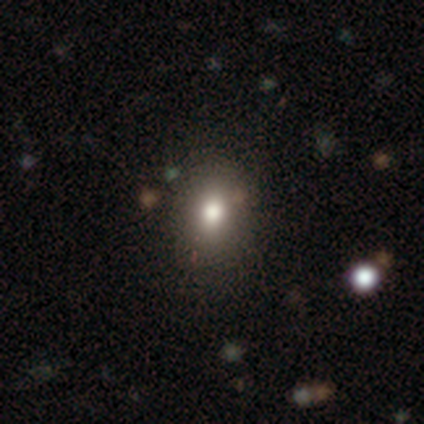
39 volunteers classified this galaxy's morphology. This is clearly a smooth galaxy (85%). How rounded: possibly in between (58%). Merging: likely none (63%).